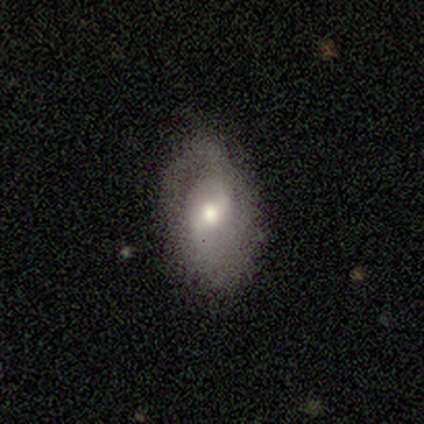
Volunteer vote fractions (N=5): Smooth or featured: featured or disk — 80% (smooth — 20%)
Edge-on disk: no — 100%
Bar: weak — 100%
Spiral arms: yes — 50% (tied with no — 50%)
Spiral winding: tight — 50% (tied with medium — 50%)
Spiral arm count: 2 — 100%
Bulge size: moderate — 75% (small — 25%)
Merging: minor disturbance — 60% (none — 40%)